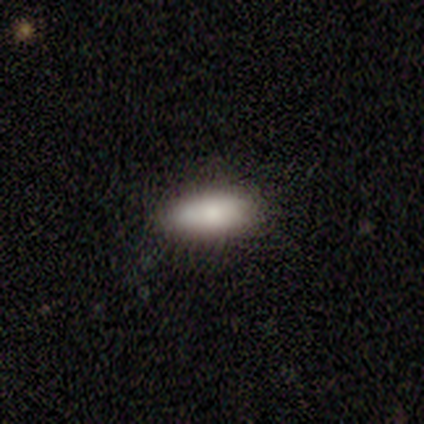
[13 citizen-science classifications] Q: Smooth or featured?
A: smooth (85%); runner-up: featured or disk (15%)
Q: How rounded?
A: in between (73%); runner-up: cigar-shaped (27%)
Q: Merging?
A: none (69%); runner-up: minor disturbance (31%)